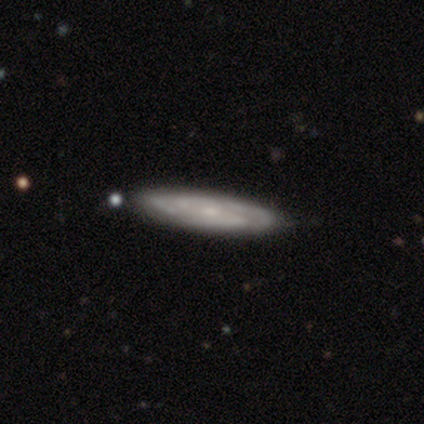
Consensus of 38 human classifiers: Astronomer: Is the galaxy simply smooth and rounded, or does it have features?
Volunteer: featured or disk — 74%.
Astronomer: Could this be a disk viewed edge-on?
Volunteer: yes — 50%, tied with no at 50%.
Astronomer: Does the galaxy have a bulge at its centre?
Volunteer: none — 64%.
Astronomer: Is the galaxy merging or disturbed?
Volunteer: none — 92%.